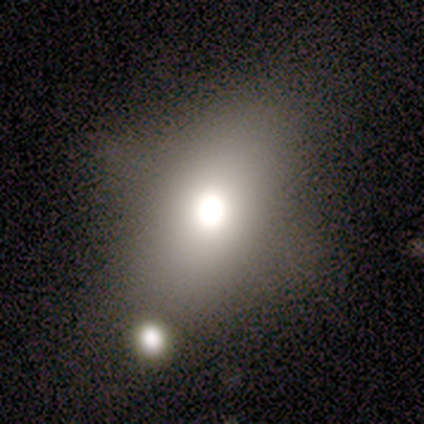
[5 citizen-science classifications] Smooth or featured? smooth (80%)
How rounded? in between (75%)
Merging? minor disturbance (60%)